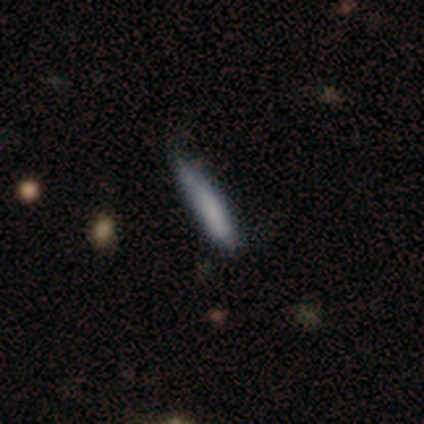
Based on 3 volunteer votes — Morphology: type=star or artifact (67%).